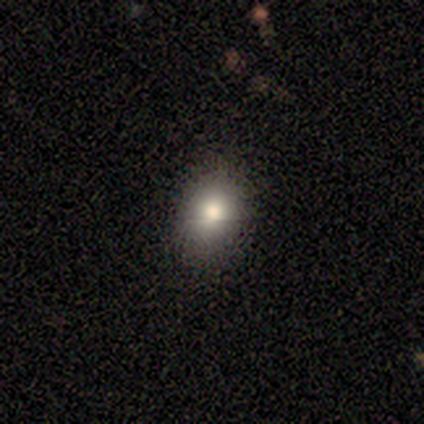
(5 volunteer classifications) Smooth or featured? smooth (60%)
How rounded? round (67%)
Merging? none (100%)